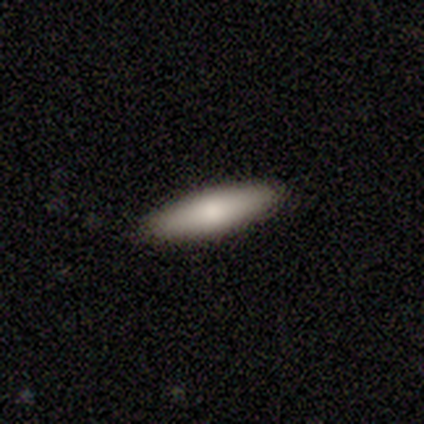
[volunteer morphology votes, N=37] This is likely a smooth galaxy (76%). How rounded: likely cigar-shaped (75%). Merging: clearly none (100%).